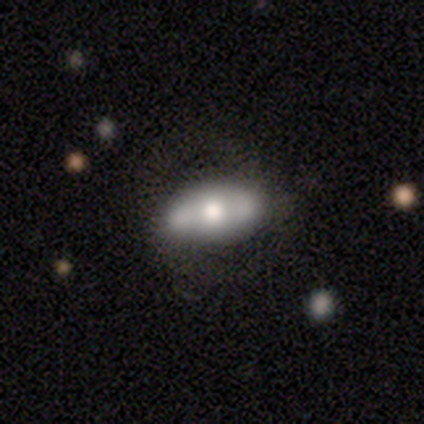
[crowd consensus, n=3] Morphology: type=featured or disk (67%); edge-on=no (100%); bar=weak (50%, tied with no); spiral arms=no (100%); bulge=moderate (100%); merging=none (100%).